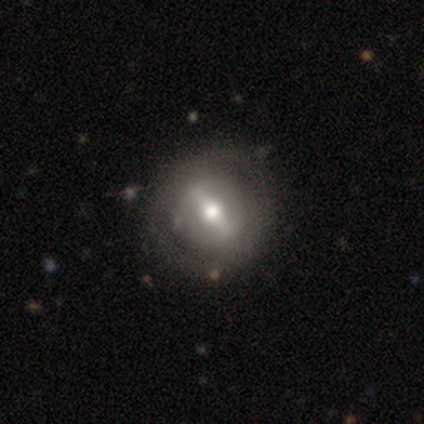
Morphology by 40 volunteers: Q: Smooth or featured?
A: featured or disk (68%); runner-up: smooth (28%)
Q: Edge-on disk?
A: no (81%); runner-up: yes (19%)
Q: Bar?
A: strong (64%); runner-up: weak (23%)
Q: Spiral arms?
A: no (82%); runner-up: yes (18%)
Q: Bulge size?
A: moderate (77%); runner-up: large (18%)
Q: Merging?
A: none (76%); runner-up: minor disturbance (11%)